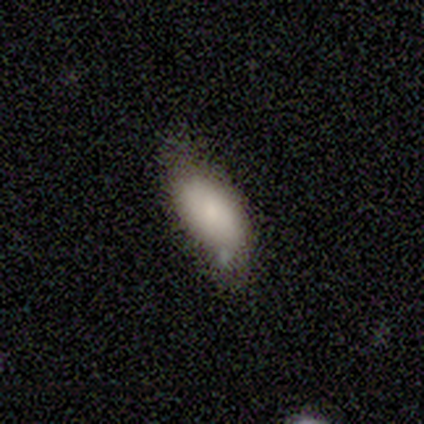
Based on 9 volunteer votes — Smooth or featured: smooth — 44% (tied with featured or disk — 44%)
How rounded: in between — 75% (round — 25%)
Merging: minor disturbance — 62% (none — 38%)